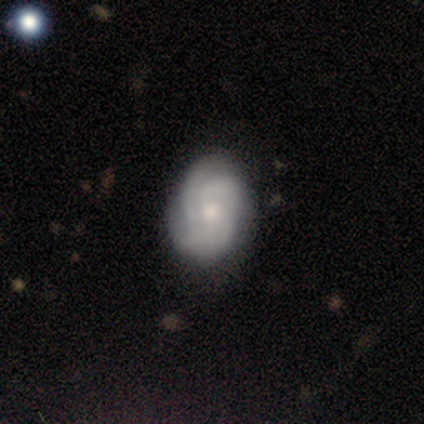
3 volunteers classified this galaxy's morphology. Smooth or featured: featured or disk — 67% (smooth — 33%)
Edge-on disk: no — 100%
Bar: weak — 50% (tied with no — 50%)
Spiral arms: yes — 100%
Spiral winding: tight — 50% (tied with medium — 50%)
Spiral arm count: 3 — 50% (tied with 4 — 50%)
Bulge size: moderate — 50% (tied with small — 50%)
Merging: none — 100%